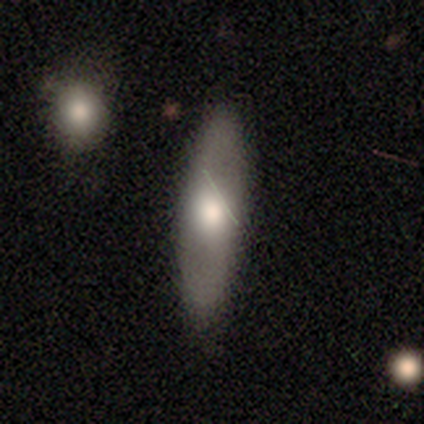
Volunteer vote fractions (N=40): Volunteers were most divided on "how rounded": cigar-shaped: 57%, in between: 39%, round: 4%. More confident: merging — none (74%); smooth or featured — smooth (57%).